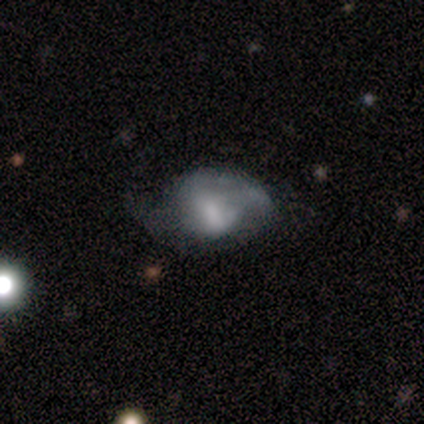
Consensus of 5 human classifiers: Smooth or featured: featured or disk — 60% (smooth — 40%)
Edge-on disk: no — 100%
Bar: weak — 67% (no — 33%)
Spiral arms: no — 67% (yes — 33%)
Bulge size: moderate — 33% (tied with small — 33%; none — 33%)
Merging: none — 40% (tied with minor disturbance — 40%)